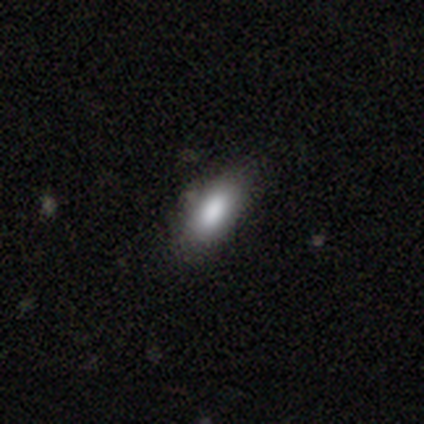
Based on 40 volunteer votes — Smooth or featured?
  - smooth: 85% *
  - star or artifact: 10%
  - featured or disk: 5%
How rounded?
  - in between: 88% *
  - cigar-shaped: 9%
  - round: 3%
Merging?
  - none: 81% *
  - minor disturbance: 17%
  - major disturbance: 3%
  - merger: 0%